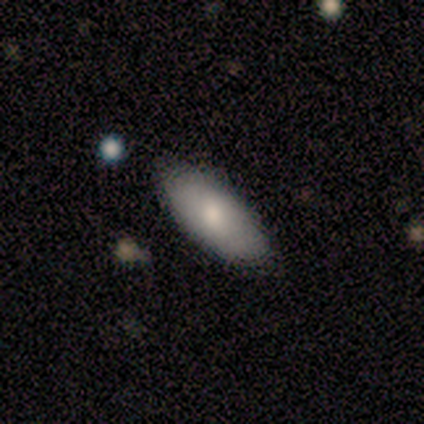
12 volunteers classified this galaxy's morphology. This appears to be a smooth galaxy with no disk features (92%) that is in between round and cigar-shaped (91%). Merging: none (100%).